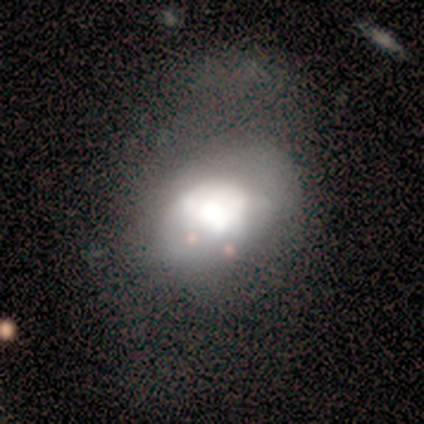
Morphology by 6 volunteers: This appears to be a featured or disk galaxy (50%) with no bar (67%), no spiral arms (100%) and a large central bulge (67%). Merging: major disturbance (50%).